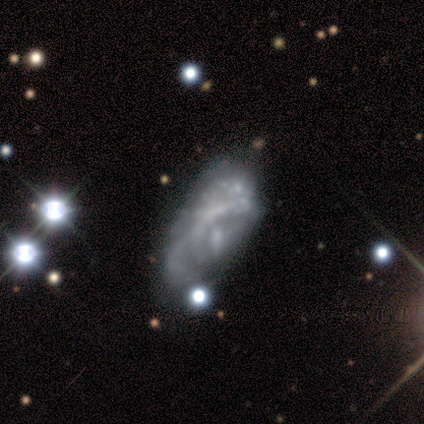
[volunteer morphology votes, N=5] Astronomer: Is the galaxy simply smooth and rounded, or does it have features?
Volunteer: featured or disk — 40%, tied with star or artifact at 40%.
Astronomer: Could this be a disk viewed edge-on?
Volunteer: no — 100%.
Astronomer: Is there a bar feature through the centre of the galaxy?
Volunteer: weak — 50%, tied with no at 50%.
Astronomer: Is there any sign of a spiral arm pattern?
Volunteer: yes — 100%.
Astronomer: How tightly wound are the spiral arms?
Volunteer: loose — 100%.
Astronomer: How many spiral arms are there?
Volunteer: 1 — 50%, tied with can't tell at 50%.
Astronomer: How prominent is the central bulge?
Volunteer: moderate — 50%, tied with small at 50%.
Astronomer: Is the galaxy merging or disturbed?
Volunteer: minor disturbance — 33%, tied with major disturbance and merger at 33%.